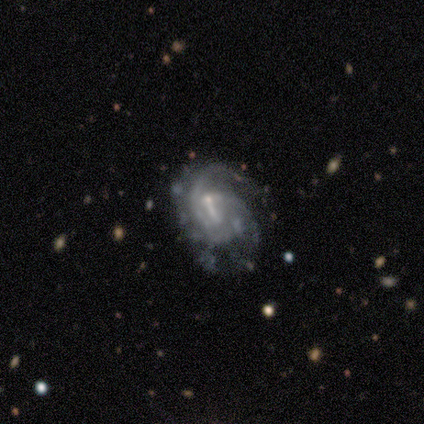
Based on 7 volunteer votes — Morphology: type=featured or disk (71%); edge-on=no (100%); bar=weak (80%); spiral arms=yes (100%); winding=medium (60%); arm count=2 (40%, tied with can't tell); bulge=small (60%); merging=none (33%, tied with minor disturbance and major disturbance).